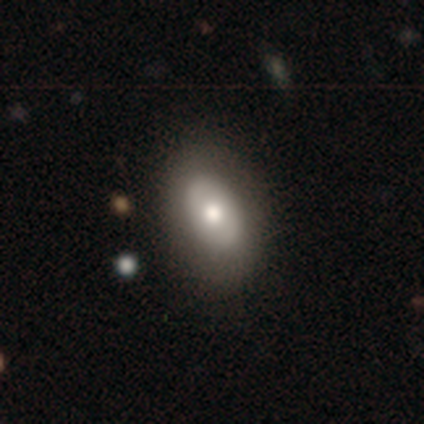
smooth 56%, featured or disk 43%, star or artifact 1%. Down the decision tree: how rounded — in between (87%); merging — none (44%).